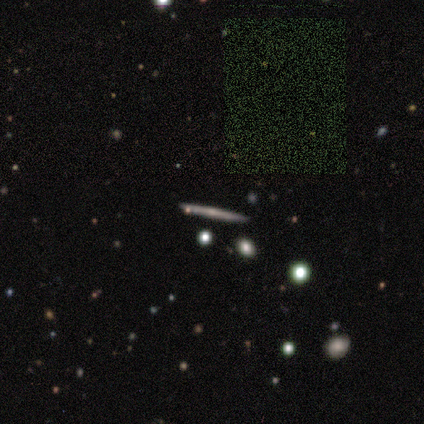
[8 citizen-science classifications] Volunteers were most divided on "edge-on bulge": none: 60%, rounded: 40%, boxy: 0%. More confident: merging — none (86%); edge-on disk — yes (83%); smooth or featured — featured or disk (75%).